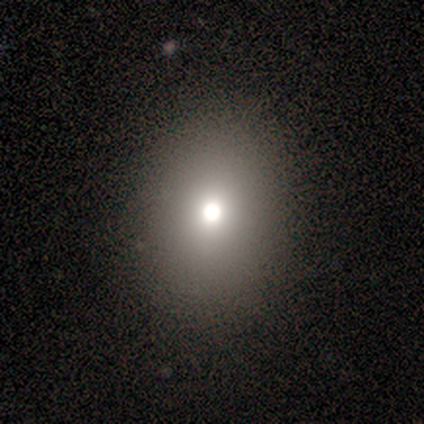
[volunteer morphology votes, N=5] Overall: smooth (80%). How rounded: in between (75%). Merging: none (100%).